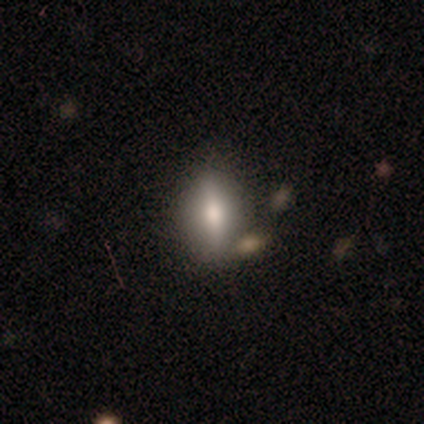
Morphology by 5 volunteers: Smooth or featured? 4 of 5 (80%) said smooth. How rounded? 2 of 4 (50%, tied with cigar-shaped) said in between. Merging? 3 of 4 (75%) said none.